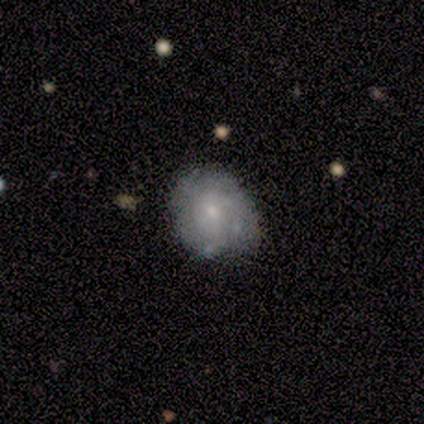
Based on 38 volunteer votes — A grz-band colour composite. It shows a featured or disk galaxy (45%) with no bar (76%), tight (64%) spiral arms (65%) and a small central bulge (71%). Merging: none (52%).